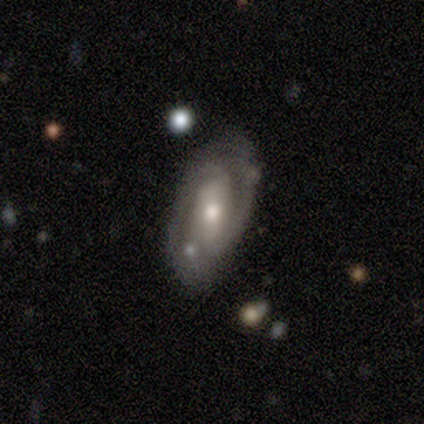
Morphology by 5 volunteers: This appears to be a featured or disk galaxy (100%) with a weak bar (60%), 2 (100%) medium (40%, tied with loose) spiral arms (100%) and a moderate central bulge (80%). Merging: none (60%).